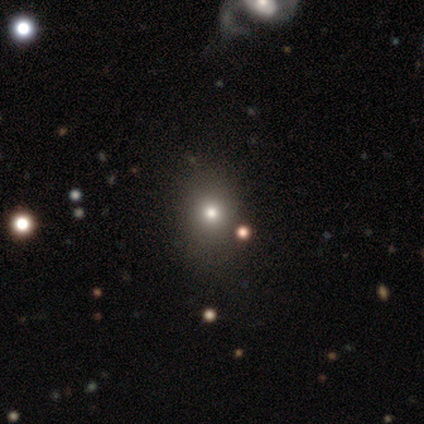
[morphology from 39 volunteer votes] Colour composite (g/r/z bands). It shows a smooth galaxy with no disk features (54%) that is round (67%). Merging: none (82%).